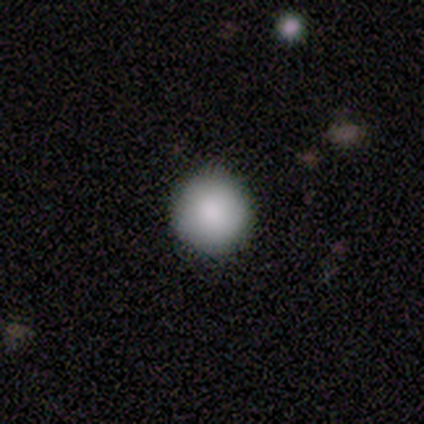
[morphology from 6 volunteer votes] Smooth or featured? smooth (100%)
How rounded? round (100%)
Merging? none (100%)